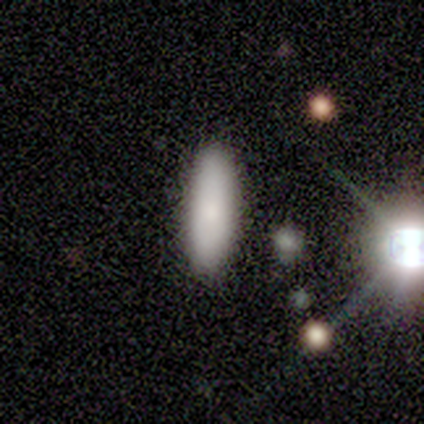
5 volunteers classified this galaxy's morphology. Smooth or featured: smooth — 100%
How rounded: cigar-shaped — 80% (in between — 20%)
Merging: none — 100%